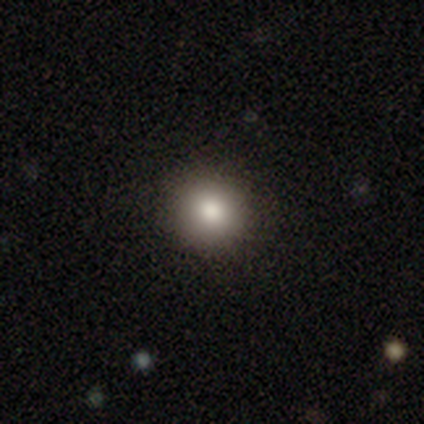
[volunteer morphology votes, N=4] smooth 50% (tied), star or artifact 50% (tied), featured or disk 0%. Down the decision tree: how rounded — round (50%, tied with in between); merging — none (50%, tied with minor disturbance).